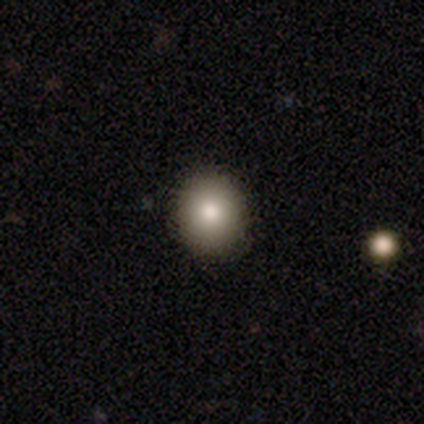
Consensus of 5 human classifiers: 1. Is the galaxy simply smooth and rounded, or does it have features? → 80% smooth, 20% featured or disk, 0% star or artifact.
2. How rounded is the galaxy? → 50% round (tied), 50% in between (tied), 0% cigar-shaped.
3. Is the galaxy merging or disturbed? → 100% none, 0% minor disturbance, 0% major disturbance, 0% merger.